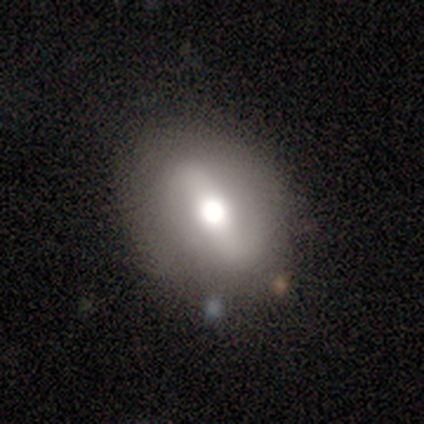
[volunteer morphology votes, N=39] A smooth galaxy with no disk features (44%, tied with featured or disk) that is round (47%, tied with in between). Merging: none (91%).